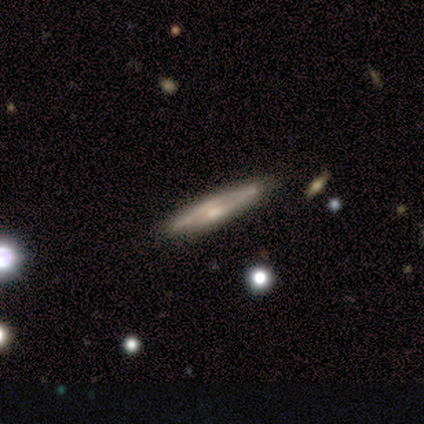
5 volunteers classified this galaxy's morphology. Q: Smooth or featured?
A: featured or disk (60%); runner-up: smooth (40%)
Q: Edge-on disk?
A: yes (100%)
Q: Edge-on bulge?
A: rounded (67%); runner-up: none (33%)
Q: Merging?
A: none (100%)